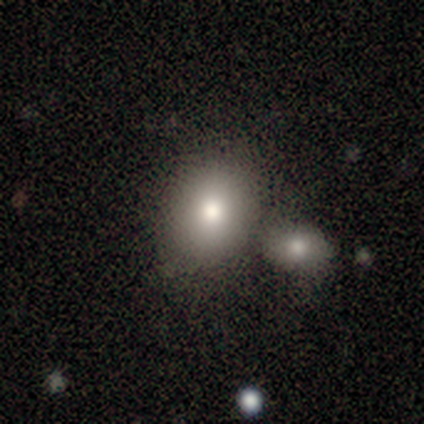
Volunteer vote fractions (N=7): Overall: smooth (86%). How rounded: round (50%, tied with in between). Merging: none (71%).